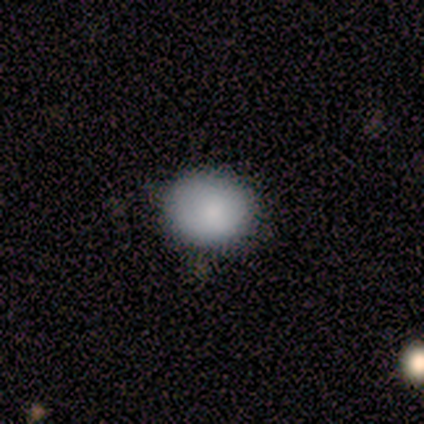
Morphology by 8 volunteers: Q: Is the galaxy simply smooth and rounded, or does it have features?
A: smooth — 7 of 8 (88%).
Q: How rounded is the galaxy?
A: round — 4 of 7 (57%).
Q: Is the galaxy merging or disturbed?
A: none — 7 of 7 (100%).